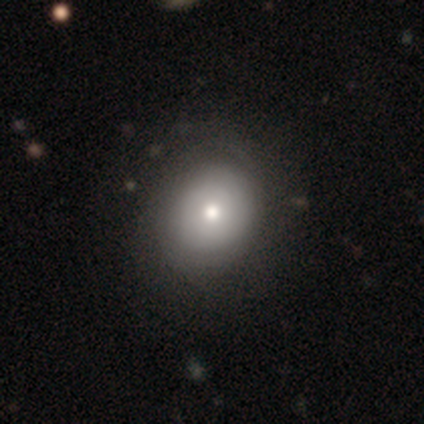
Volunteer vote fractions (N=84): smooth 71%, featured or disk 20%, star or artifact 8%. Down the decision tree: how rounded — round (65%); merging — none (77%).